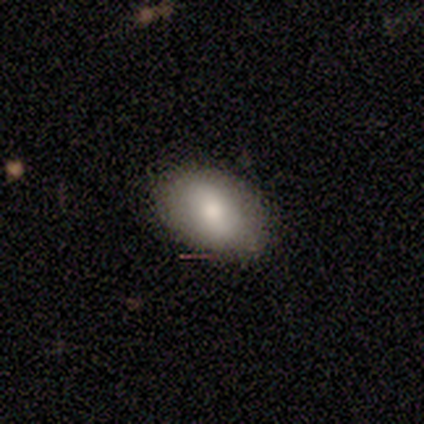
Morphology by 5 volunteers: smooth 100%, featured or disk 0%, star or artifact 0%. Down the decision tree: how rounded — in between (80%); merging — none (100%).